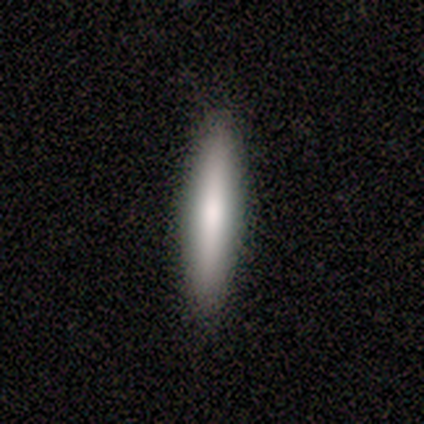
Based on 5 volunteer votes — smooth_or_featured: smooth (p=0.60) [alt: featured or disk p=0.40]
how_rounded: cigar-shaped (p=1.00)
merging: none (p=0.80) [alt: minor disturbance p=0.20]